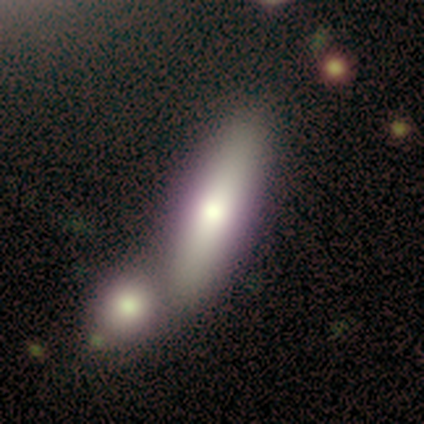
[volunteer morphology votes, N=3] smooth 100%, featured or disk 0%, star or artifact 0%. Down the decision tree: how rounded — in between (100%); merging — merger (67%).